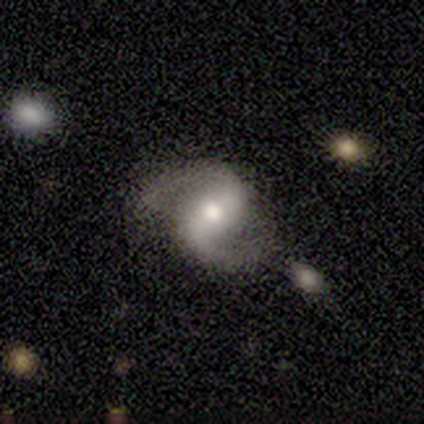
Volunteers were most divided on "spiral winding" (2-way tie): medium: 50%, loose: 50%, tight: 0%. More confident: smooth or featured — featured or disk (100%); edge-on disk — no (100%); spiral arms — yes (100%); spiral arm count — 2 (100%); bulge size — moderate (100%); merging — none (100%); bar — strong (50%).